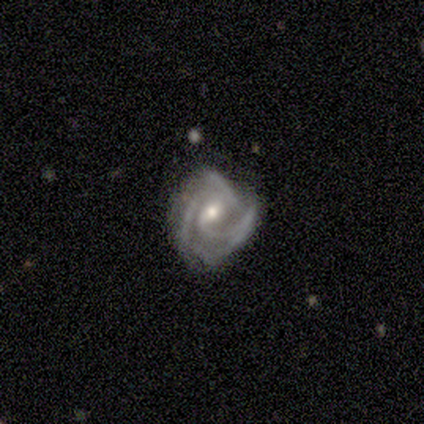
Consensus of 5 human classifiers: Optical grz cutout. It shows a featured or disk galaxy (80%) with a weak bar (75%), 1 (25%, tied with 3, 4 and can't tell) tight (50%) spiral arms (100%) and a small central bulge (75%). Merging: none (50%).